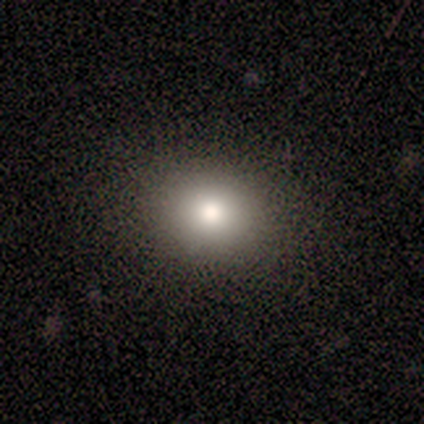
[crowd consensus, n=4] smooth-or-featured: smooth: 100% | featured or disk: 0% | star or artifact: 0%
  how-rounded: round: 75% | in between: 25% | cigar-shaped: 0%
  merging: none: 75% | major disturbance: 25% | minor disturbance: 0% | merger: 0%